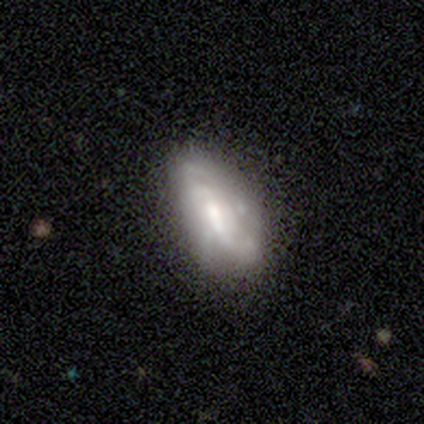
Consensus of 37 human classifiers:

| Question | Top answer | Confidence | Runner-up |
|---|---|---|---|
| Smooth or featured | featured or disk | 76% | smooth (22%) |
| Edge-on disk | no | 89% | yes (11%) |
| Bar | weak | 56% | no (28%) |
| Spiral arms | yes | 60% | no (40%) |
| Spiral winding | tight | 53% | medium (27%) |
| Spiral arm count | can't tell | 60% | 2 (13%) |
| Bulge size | moderate | 48% | small (36%) |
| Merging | none | 64% | minor disturbance (19%) |